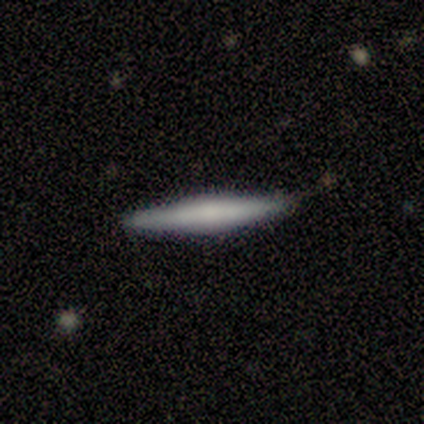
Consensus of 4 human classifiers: Q: Smooth or featured?
A: featured or disk (75%); runner-up: smooth (25%)
Q: Edge-on disk?
A: yes (100%)
Q: Edge-on bulge?
A: rounded (100%)
Q: Merging?
A: none (100%)